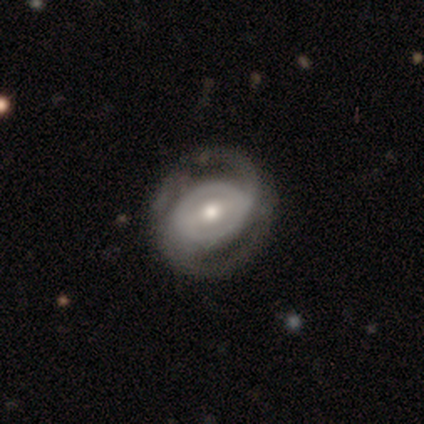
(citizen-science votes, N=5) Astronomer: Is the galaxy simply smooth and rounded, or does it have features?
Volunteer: featured or disk — 100%.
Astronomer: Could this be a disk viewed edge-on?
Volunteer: no — 100%.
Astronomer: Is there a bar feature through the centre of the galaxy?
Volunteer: strong — 40%, tied with no at 40%.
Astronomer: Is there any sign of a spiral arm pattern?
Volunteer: yes — 100%.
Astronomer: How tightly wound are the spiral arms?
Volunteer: tight — 40%, tied with medium at 40%.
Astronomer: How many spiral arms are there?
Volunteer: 2 — 100%.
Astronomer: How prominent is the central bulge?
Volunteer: moderate — 100%.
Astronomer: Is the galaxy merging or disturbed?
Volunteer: none — 80%.